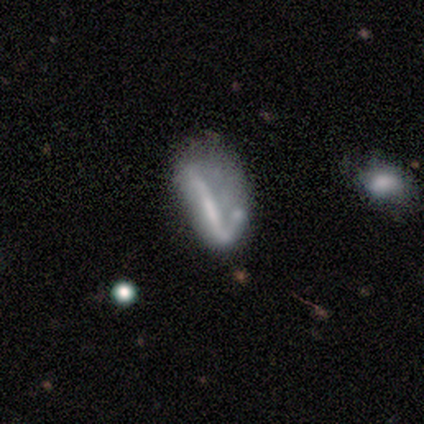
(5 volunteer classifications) smooth-or-featured: featured or disk: 80% | star or artifact: 20% | smooth: 0%
  disk-edge-on: yes: 50% (tied) | no: 50% (tied)
    edge-on-bulge: none: 100% | boxy: 0% | rounded: 0%
  merging: major disturbance: 75% | minor disturbance: 25% | none: 0% | merger: 0%